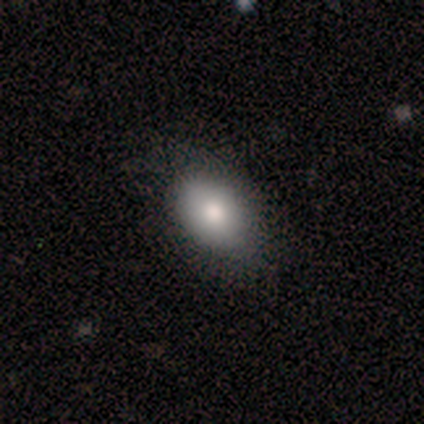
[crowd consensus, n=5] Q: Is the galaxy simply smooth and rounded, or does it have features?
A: smooth — 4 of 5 (80%).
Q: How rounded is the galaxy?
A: in between — 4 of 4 (100%).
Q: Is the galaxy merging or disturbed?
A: none — 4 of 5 (80%).